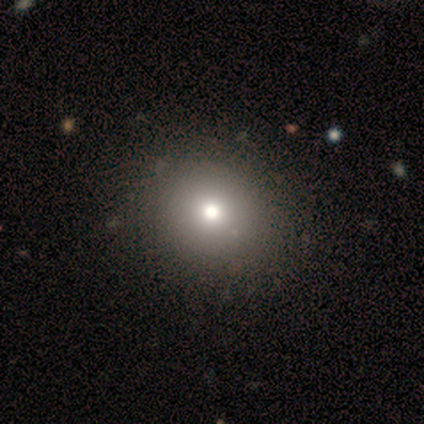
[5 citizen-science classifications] This is clearly a smooth galaxy (80%). How rounded: clearly round (100%). Merging: clearly none (100%).